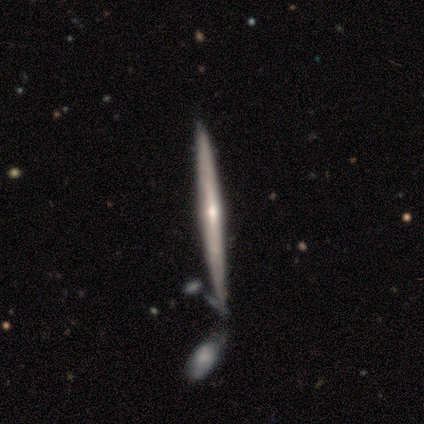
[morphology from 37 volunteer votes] Overall: featured or disk (81%). Edge-on disk: yes (100%). Edge-on bulge: rounded (53%; none 43%). Merging: none (69%).